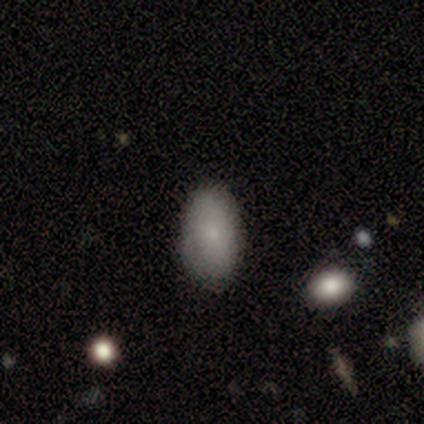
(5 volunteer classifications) This is clearly a smooth galaxy (80%). How rounded: clearly in between (100%). Merging: likely none (75%).